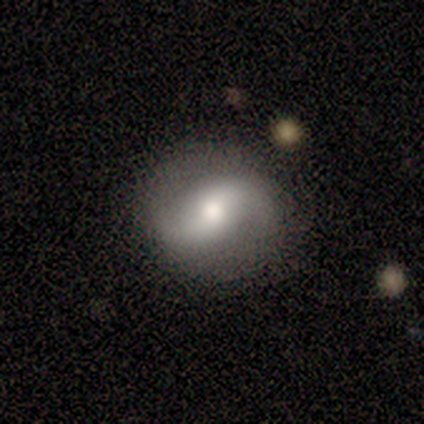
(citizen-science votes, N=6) Volunteers were most divided on "smooth or featured": featured or disk: 67%, smooth: 33%, star or artifact: 0%. More confident: spiral arms — yes (100%); spiral arm count — 2 (100%); merging — none (83%); edge-on disk — no (75%); bar — weak (67%); spiral winding — loose (67%); bulge size — moderate (67%).